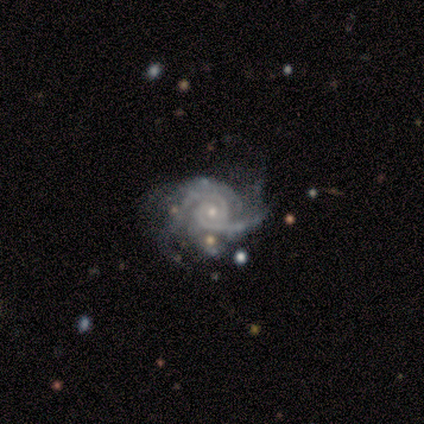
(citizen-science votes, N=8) Smooth or featured? featured or disk (88%)
Edge-on disk? no (100%)
Bar? no (71%)
Spiral arms? yes (100%)
Spiral winding? tight (71%)
Spiral arm count? 2 (71%)
Bulge size? small (86%)
Merging? minor disturbance (50%)